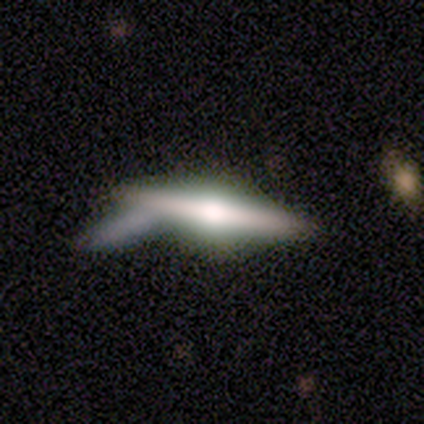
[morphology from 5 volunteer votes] This is clearly a featured or disk galaxy (80%). It is clearly viewed edge-on (100%). Edge-on bulge: clearly rounded (100%). Merging: likely none (60%).